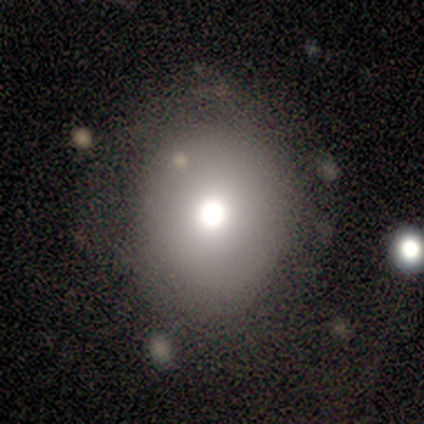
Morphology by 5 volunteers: This is likely a smooth galaxy (60%). How rounded: clearly round (100%). Merging: likely none (67%).